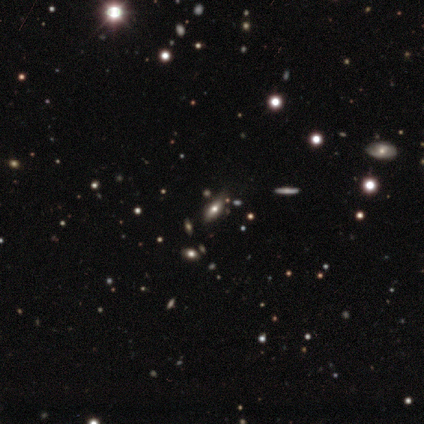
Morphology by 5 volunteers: smooth_or_featured: smooth (p=0.80) [alt: featured or disk p=0.20]
how_rounded: in between (p=1.00)
merging: none (p=1.00)